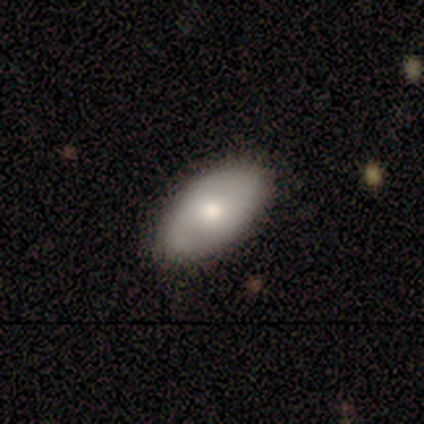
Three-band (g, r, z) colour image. It shows a smooth galaxy with no disk features (69%) that is in between round and cigar-shaped (100%). Merging: none (83%).